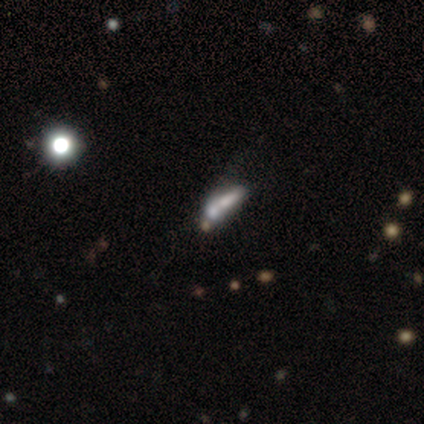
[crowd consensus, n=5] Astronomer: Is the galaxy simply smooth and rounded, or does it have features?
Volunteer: smooth — 40%, tied with featured or disk at 40%.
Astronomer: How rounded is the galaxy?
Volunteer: cigar-shaped — 100%.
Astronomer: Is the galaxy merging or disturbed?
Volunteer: none — 25%, tied with minor disturbance, major disturbance and merger at 25%.